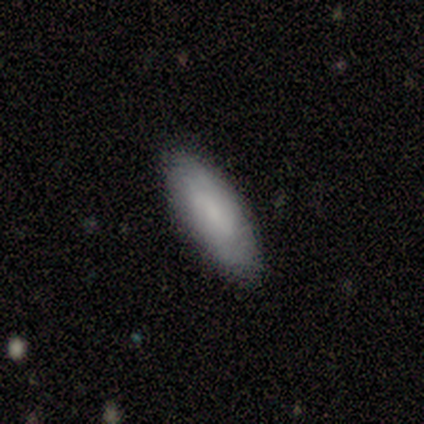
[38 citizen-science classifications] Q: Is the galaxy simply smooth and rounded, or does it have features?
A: smooth — 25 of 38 (66%).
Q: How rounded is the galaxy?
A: in between — 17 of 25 (68%).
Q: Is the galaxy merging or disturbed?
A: none — 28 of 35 (80%).